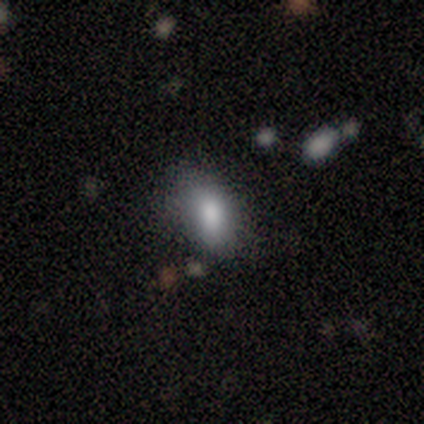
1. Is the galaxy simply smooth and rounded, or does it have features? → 100% smooth, 0% featured or disk, 0% star or artifact.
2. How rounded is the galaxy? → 100% in between, 0% round, 0% cigar-shaped.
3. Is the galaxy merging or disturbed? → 50% none (tied), 50% minor disturbance (tied), 0% major disturbance, 0% merger.